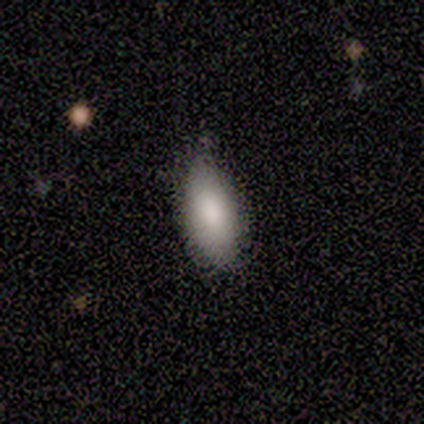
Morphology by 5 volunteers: A smooth galaxy with no disk features (100%) that is in between round and cigar-shaped (60%). Merging: none (80%).